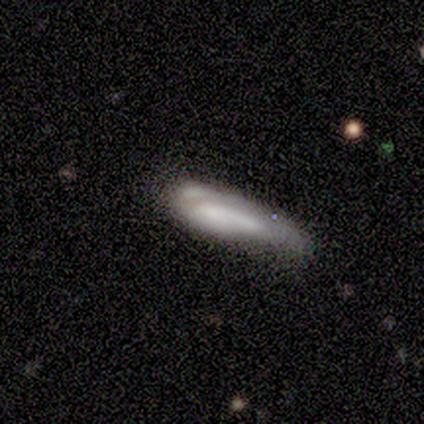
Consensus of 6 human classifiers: Smooth or featured? smooth (83%)
How rounded? cigar-shaped (80%)
Merging? none (33%, tied with major disturbance)